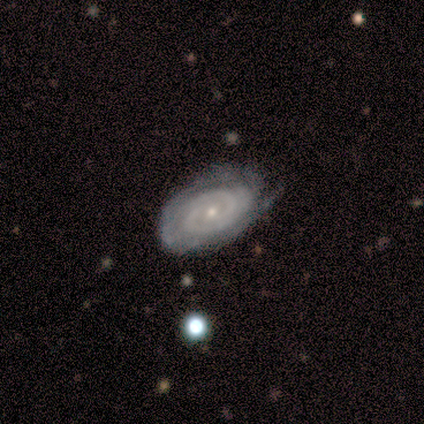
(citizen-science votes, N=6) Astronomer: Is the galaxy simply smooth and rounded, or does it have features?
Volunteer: featured or disk — 67%.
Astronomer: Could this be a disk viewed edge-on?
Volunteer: no — 100%.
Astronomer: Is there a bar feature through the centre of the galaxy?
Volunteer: no — 100%.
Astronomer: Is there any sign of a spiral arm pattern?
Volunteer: yes — 100%.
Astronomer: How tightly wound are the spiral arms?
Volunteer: tight — 75%.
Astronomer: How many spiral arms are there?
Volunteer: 2 — 50%, tied with can't tell at 50%.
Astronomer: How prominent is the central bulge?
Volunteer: small — 100%.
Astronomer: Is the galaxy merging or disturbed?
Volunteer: minor disturbance — 50% (runner-up: none, 33%).